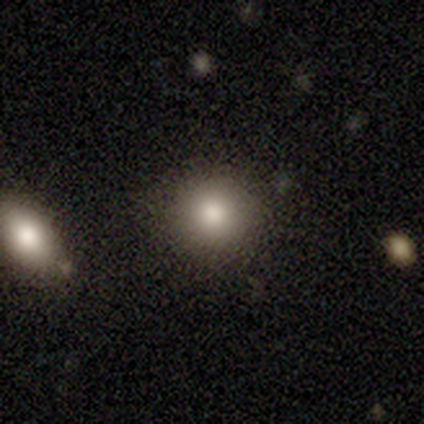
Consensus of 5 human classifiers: Smooth or featured?
  - smooth: 80% *
  - featured or disk: 20%
  - star or artifact: 0%
How rounded?
  - round: 100% *
  - in between: 0%
  - cigar-shaped: 0%
Merging?
  - none: 100% *
  - minor disturbance: 0%
  - major disturbance: 0%
  - merger: 0%